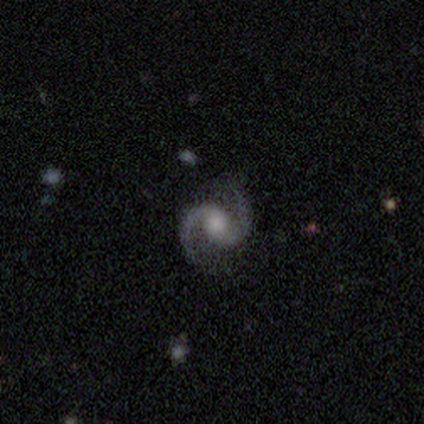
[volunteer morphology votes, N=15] A featured or disk galaxy (100%) with no bar (64%), 2 (100%) medium (64%) spiral arms (100%) and a moderate central bulge (43%). Merging: none (93%).